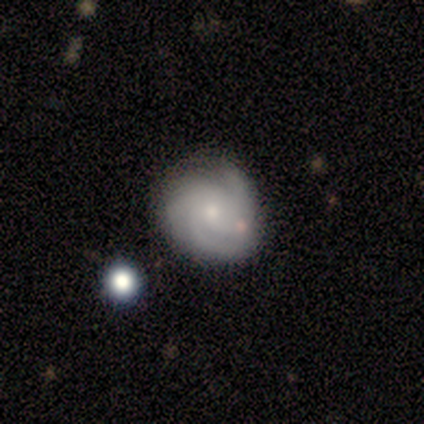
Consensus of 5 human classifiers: Volunteers were most divided on "spiral winding" (2-way tie): tight: 40%, medium: 40%, loose: 20%. More confident: smooth or featured — featured or disk (100%); edge-on disk — no (100%); spiral arms — yes (100%); bar — no (80%); bulge size — small (60%); merging — none (60%); spiral arm count — 3 (60%).